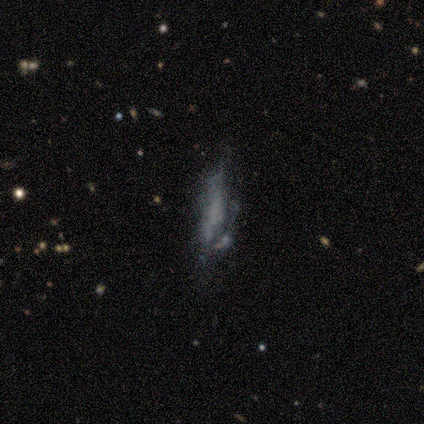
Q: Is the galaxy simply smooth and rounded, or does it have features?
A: smooth — 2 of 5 (40%, tied with featured or disk).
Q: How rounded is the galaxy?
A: cigar-shaped — 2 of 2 (100%).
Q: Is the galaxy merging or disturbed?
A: none — 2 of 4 (50%, tied with major disturbance).